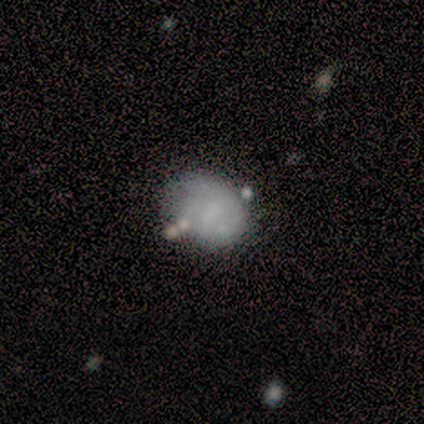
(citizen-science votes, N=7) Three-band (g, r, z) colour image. It shows a smooth galaxy with no disk features (71%) that is round (100%). Merging: none (50%).